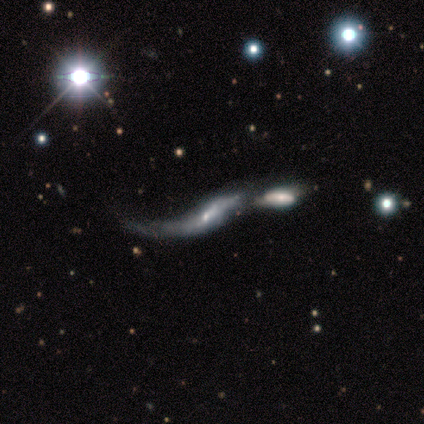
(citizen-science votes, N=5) Smooth or featured?
  - featured or disk: 60% *
  - smooth: 40%
  - star or artifact: 0%
Edge-on disk?
  - no: 67% *
  - yes: 33%
Bar?
  - weak: 50% * (tied)
  - no: 50% * (tied)
  - strong: 0%
Spiral arms?
  - yes: 50% * (tied)
  - no: 50% * (tied)
Spiral winding?
  - loose: 100% *
  - tight: 0%
  - medium: 0%
Spiral arm count?
  - 2: 100% *
  - 1: 0%
  - 3: 0%
  - 4: 0%
  - more than 4: 0%
  - can't tell: 0%
Bulge size?
  - moderate: 50% * (tied)
  - small: 50% * (tied)
  - dominant: 0%
  - large: 0%
  - none: 0%
Merging?
  - merger: 100% *
  - none: 0%
  - minor disturbance: 0%
  - major disturbance: 0%